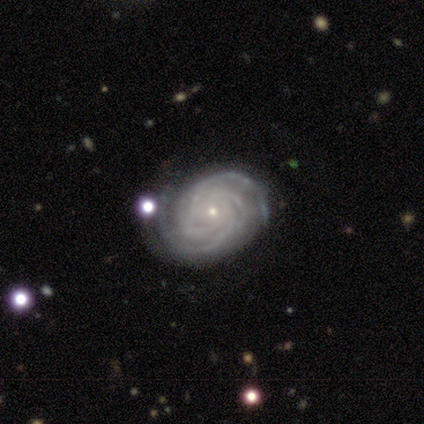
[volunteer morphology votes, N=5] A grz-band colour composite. It shows a featured or disk galaxy (100%) with no bar (100%), 3 (60%) tight (100%) spiral arms (100%) and a small central bulge (80%). Merging: none (80%).